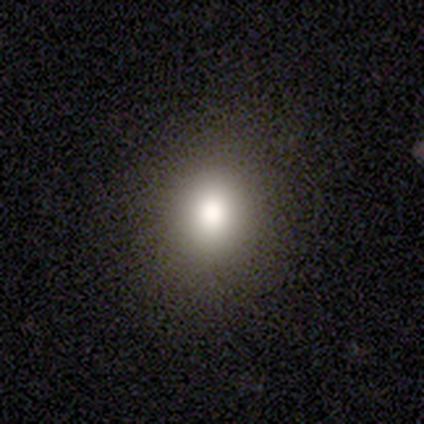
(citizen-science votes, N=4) Q: Smooth or featured?
A: smooth (75%); runner-up: star or artifact (25%)
Q: How rounded?
A: round (67%); runner-up: in between (33%)
Q: Merging?
A: none (100%)